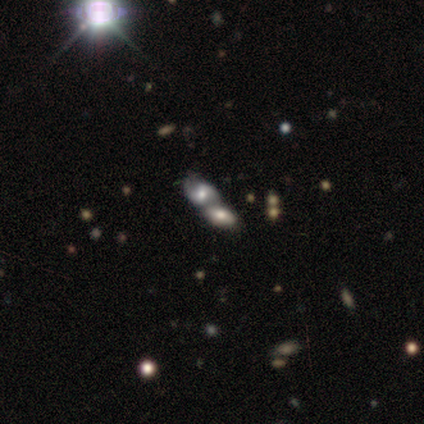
smooth-or-featured: smooth: 100% | featured or disk: 0% | star or artifact: 0%
  how-rounded: in between: 80% | round: 20% | cigar-shaped: 0%
  merging: merger: 80% | major disturbance: 20% | none: 0% | minor disturbance: 0%